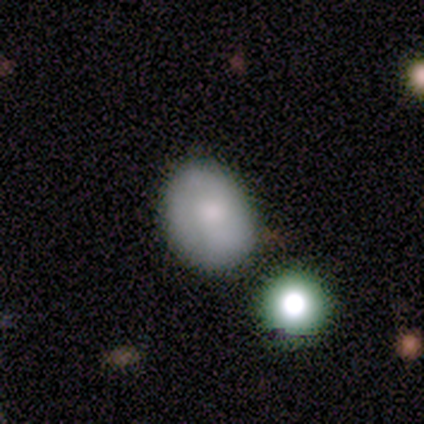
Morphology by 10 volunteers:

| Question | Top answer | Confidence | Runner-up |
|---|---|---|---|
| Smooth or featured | smooth | 90% | featured or disk (10%) |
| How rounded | in between | 78% | round (22%) |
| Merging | none | 40% | minor disturbance (30%) |